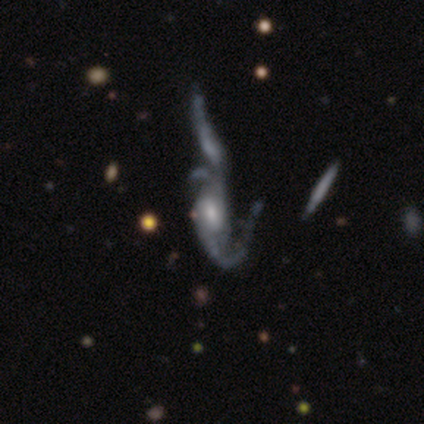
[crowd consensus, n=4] Smooth or featured: featured or disk — 100%
Edge-on disk: no — 75% (yes — 25%)
Bar: no — 67% (strong — 33%)
Spiral arms: yes — 100%
Spiral winding: tight — 33% (tied with medium — 33%; loose — 33%)
Spiral arm count: 2 — 67% (can't tell — 33%)
Bulge size: moderate — 67% (large — 33%)
Merging: merger — 75% (minor disturbance — 25%)